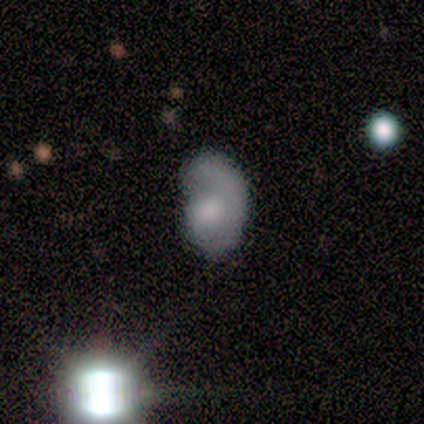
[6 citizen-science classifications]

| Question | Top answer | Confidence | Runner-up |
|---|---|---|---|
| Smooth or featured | smooth | 67% | featured or disk (33%) |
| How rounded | in between | 100% | — |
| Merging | minor disturbance | 50% | major disturbance (33%) |